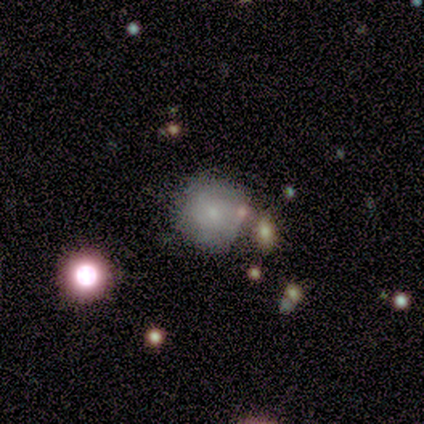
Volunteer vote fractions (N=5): Volunteers were most divided on "smooth or featured" (2-way tie): smooth: 40%, featured or disk: 40%, star or artifact: 20%. More confident: how rounded — round (100%); merging — none (50%).